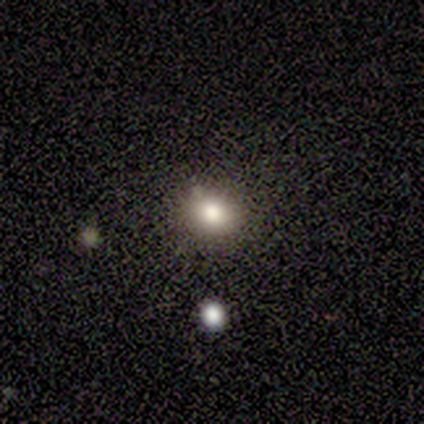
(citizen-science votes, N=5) This is clearly a smooth galaxy (80%). How rounded: likely in between (75%). Merging: likely none (75%).